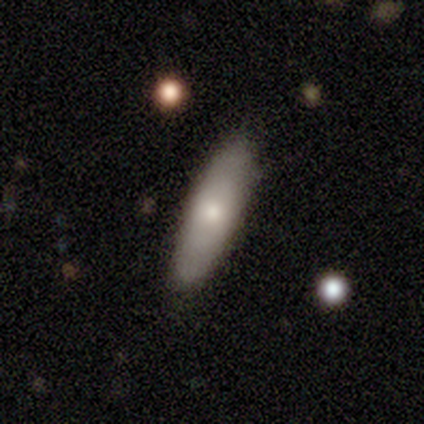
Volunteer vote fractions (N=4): smooth 75%, featured or disk 25%, star or artifact 0%. Down the decision tree: how rounded — in between (67%); merging — none (75%).